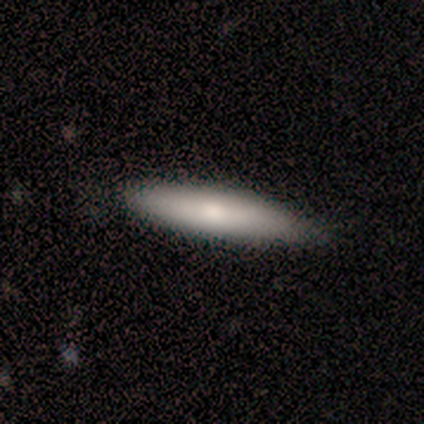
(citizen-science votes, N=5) A featured or disk galaxy (60%) viewed edge-on (100%) with a rounded central bulge (100%).

Vote fractions:
- Smooth or featured? featured or disk: 60% / smooth: 40% / star or artifact: 0%
- Edge-on disk? yes: 100% / no: 0%
- Edge-on bulge? rounded: 100% / boxy: 0% / none: 0%
- Merging? none: 100% / minor disturbance: 0% / major disturbance: 0% / merger: 0%